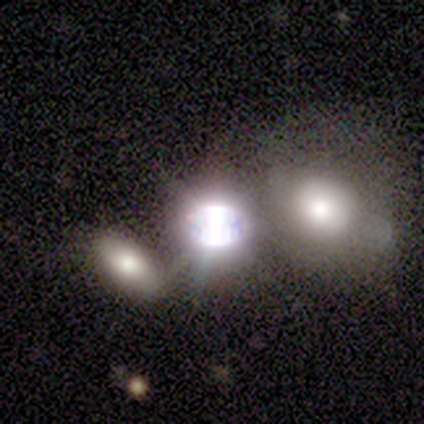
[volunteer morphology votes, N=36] type=star or artifact (58%).